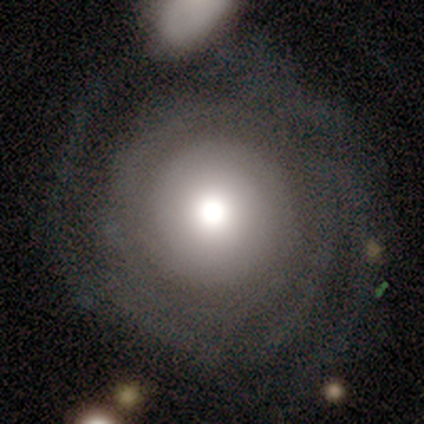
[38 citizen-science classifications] Morphology: type=featured or disk (66%); edge-on=no (100%); bar=no (88%); spiral arms=yes (88%); winding=tight (91%); arm count=can't tell (32%); bulge=moderate (60%); merging=none (66%).